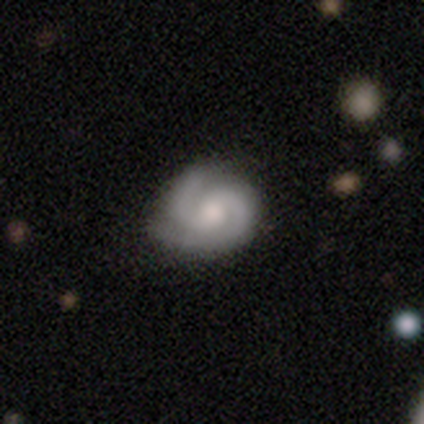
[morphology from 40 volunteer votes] Volunteers were most divided on "spiral winding": tight: 54%, medium: 46%, loose: 0%. More confident: spiral arms — yes (100%); edge-on disk — no (97%); smooth or featured — featured or disk (90%); spiral arm count — 2 (86%); bulge size — moderate (66%); bar — no (63%); merging — none (54%).